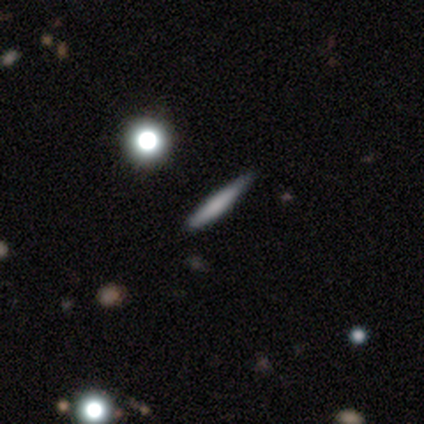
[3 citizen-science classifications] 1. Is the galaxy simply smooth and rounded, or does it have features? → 67% featured or disk, 33% smooth, 0% star or artifact.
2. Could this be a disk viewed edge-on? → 100% yes, 0% no.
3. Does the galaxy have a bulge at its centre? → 50% none (tied), 50% rounded (tied), 0% boxy.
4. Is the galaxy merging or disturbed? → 100% none, 0% minor disturbance, 0% major disturbance, 0% merger.